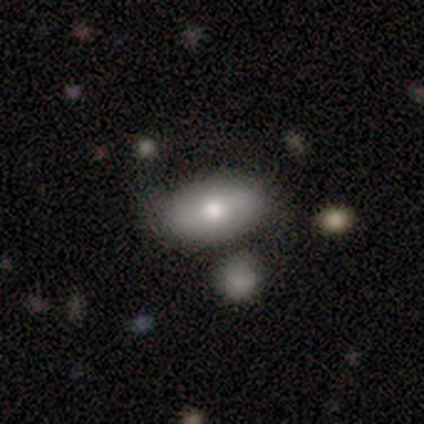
Smooth or featured: smooth — 80% (featured or disk — 20%)
How rounded: in between — 100%
Merging: none — 100%